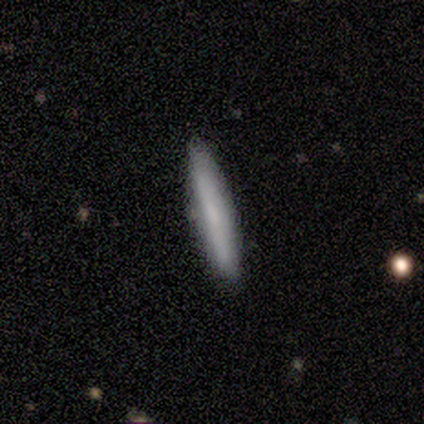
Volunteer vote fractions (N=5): Q: Smooth or featured?
A: smooth (80%); runner-up: featured or disk (20%)
Q: How rounded?
A: cigar-shaped (75%); runner-up: in between (25%)
Q: Merging?
A: none (100%)